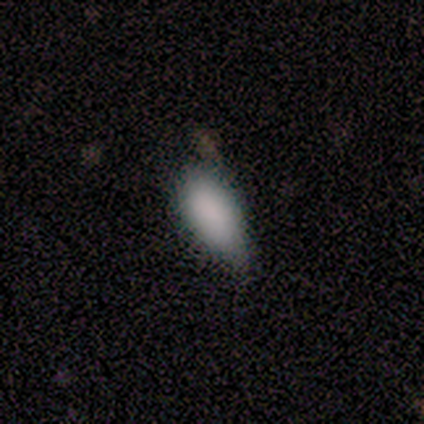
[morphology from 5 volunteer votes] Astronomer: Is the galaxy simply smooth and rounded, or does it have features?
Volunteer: smooth — 100%.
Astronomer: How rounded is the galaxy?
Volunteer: in between — 100%.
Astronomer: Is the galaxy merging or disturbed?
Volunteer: minor disturbance — 80%.